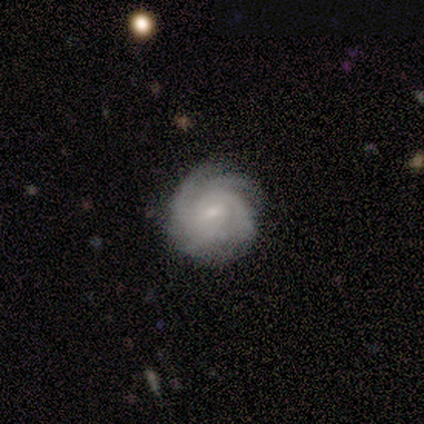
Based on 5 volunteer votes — This is clearly a featured or disk galaxy (80%). It is clearly not viewed edge-on (100%). Bar: likely no (75%). Spiral arm pattern: clearly yes (100%). Spiral arm count: possibly can't tell (50%). Spiral winding: likely medium (75%). Central bulge: likely small (75%). Merging: clearly none (100%).